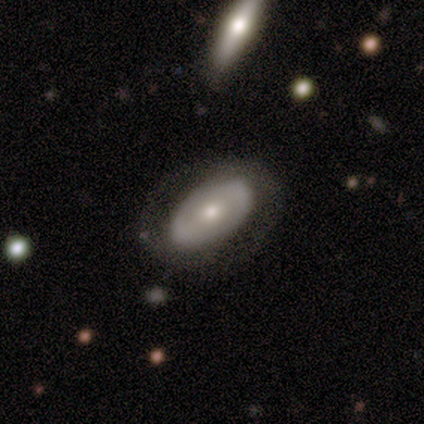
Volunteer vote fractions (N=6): smooth_or_featured: smooth (p=0.50) [tied with: featured or disk p=0.50]
how_rounded: in between (p=0.67) [alt: round p=0.33]
merging: none (p=0.67) [alt: minor disturbance p=0.33]